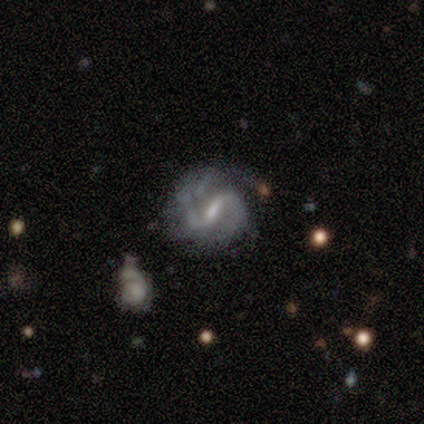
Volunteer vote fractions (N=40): A featured or disk galaxy (88%) with a strong bar (47%, tied with weak), 2 (85%) medium (52%) spiral arms (97%) and a small central bulge (44%).

Vote fractions:
- Smooth or featured? featured or disk: 88% / smooth: 10% / star or artifact: 2%
- Edge-on disk? no: 97% / yes: 3%
- Bar? strong: 47% (tied) / weak: 47% (tied) / no: 6%
- Spiral arms? yes: 97% / no: 3%
- Spiral winding? medium: 52% / loose: 27% / tight: 21%
- Spiral arm count? 2: 85% / 3: 12% / 1: 3% / 4: 0% / more than 4: 0% / can't tell: 0%
- Bulge size? small: 44% / moderate: 38% / none: 15% / large: 3% / dominant: 0%
- Merging? none: 54% / minor disturbance: 23% / merger: 13% / major disturbance: 10%